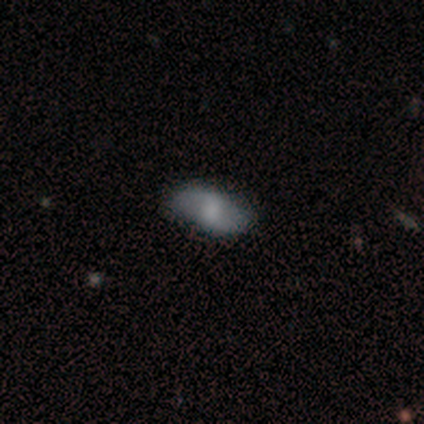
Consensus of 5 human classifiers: Smooth or featured: smooth — 100%
How rounded: in between — 100%
Merging: none — 100%